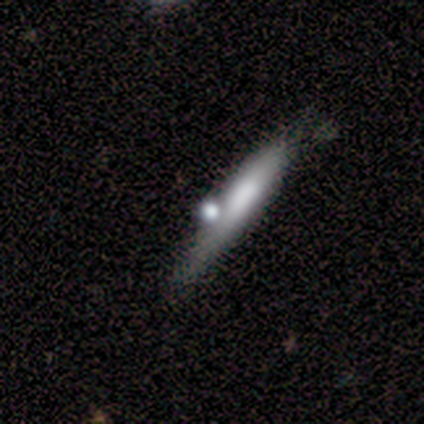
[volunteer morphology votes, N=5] This appears to be a featured or disk galaxy (60%) viewed edge-on (67%) with a boxy central bulge (50%, tied with none). Merging: none (40%, tied with merger).